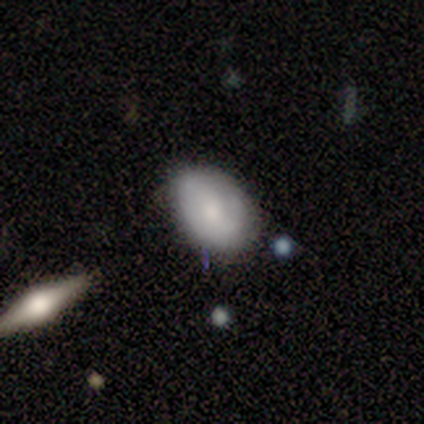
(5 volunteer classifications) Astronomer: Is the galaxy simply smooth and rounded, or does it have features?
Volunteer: smooth — 60%.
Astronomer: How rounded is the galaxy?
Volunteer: in between — 100%.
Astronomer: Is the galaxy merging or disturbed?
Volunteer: none — 100%.